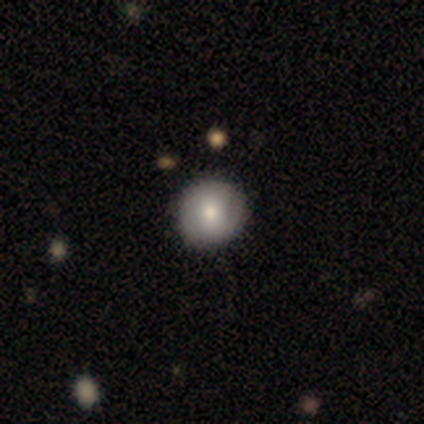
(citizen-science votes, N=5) Smooth or featured? 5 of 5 (100%) said smooth. How rounded? 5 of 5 (100%) said round. Merging? 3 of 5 (60%) said minor disturbance.